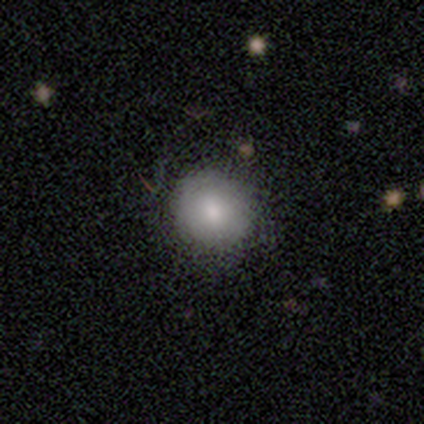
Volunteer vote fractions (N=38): A smooth galaxy with no disk features (82%) that is round (87%).

Vote fractions:
- Smooth or featured? smooth: 82% / featured or disk: 16% / star or artifact: 3%
- How rounded? round: 87% / in between: 13% / cigar-shaped: 0%
- Merging? none: 76% / minor disturbance: 22% / major disturbance: 3% / merger: 0%